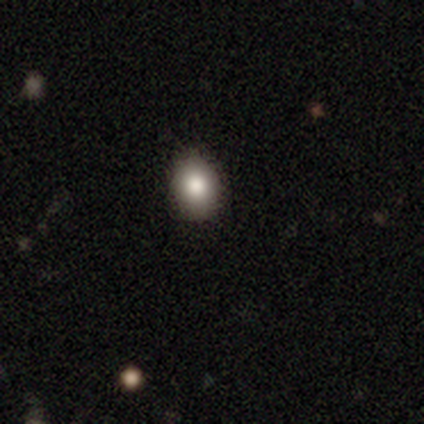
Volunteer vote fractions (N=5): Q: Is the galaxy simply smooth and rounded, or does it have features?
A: smooth — 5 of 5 (100%).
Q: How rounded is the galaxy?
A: in between — 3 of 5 (60%).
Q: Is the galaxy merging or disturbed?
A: none — 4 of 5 (80%).